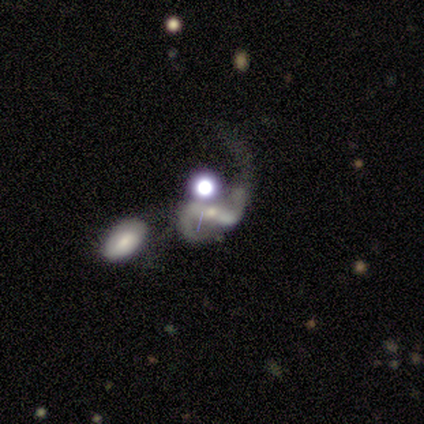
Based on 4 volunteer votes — Morphology: type=featured or disk (75%); edge-on=no (100%); bar=strong (100%); spiral arms=yes (100%); winding=medium (67%); arm count=2 (100%); bulge=small (67%); merging=major disturbance (50%, tied with merger).